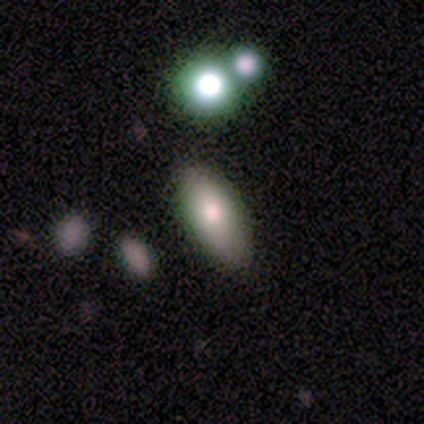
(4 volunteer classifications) smooth_or_featured: smooth (p=0.75) [alt: featured or disk p=0.25]
how_rounded: in between (p=1.00)
merging: none (p=1.00)